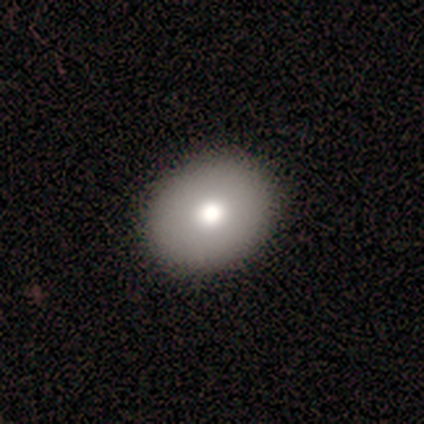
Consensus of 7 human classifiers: Morphology: type=smooth (71%); roundness=round (100%); merging=none (100%).